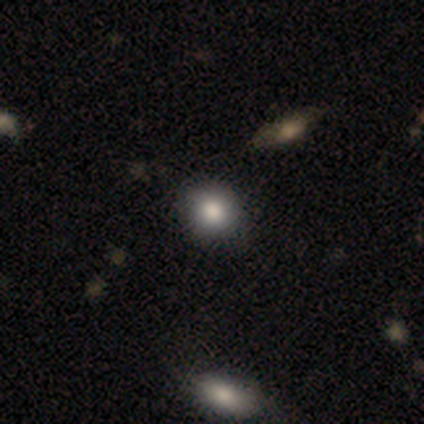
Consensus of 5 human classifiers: A smooth galaxy with no disk features (100%) that is round (80%). Merging: none (60%).